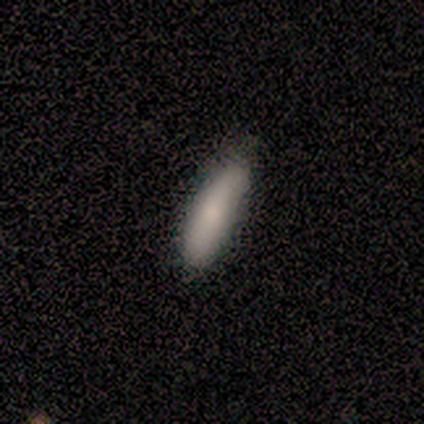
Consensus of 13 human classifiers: Smooth or featured? 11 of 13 (85%) said smooth. How rounded? 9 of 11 (82%) said cigar-shaped. Merging? 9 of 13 (69%) said none.